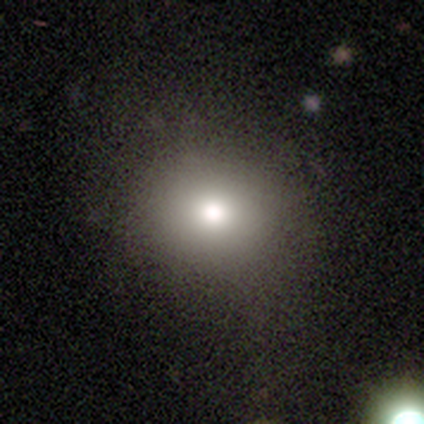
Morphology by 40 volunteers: smooth 85%, featured or disk 8%, star or artifact 8%. Down the decision tree: how rounded — round (79%); merging — none (65%).